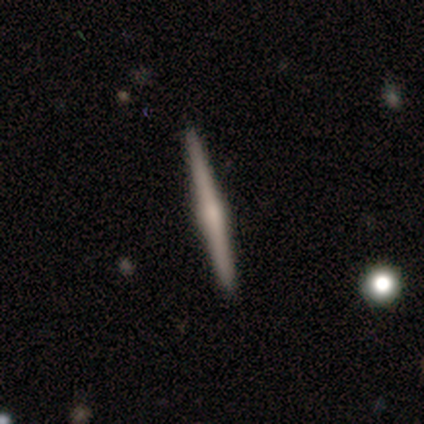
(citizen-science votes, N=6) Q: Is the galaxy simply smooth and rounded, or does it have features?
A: featured or disk — 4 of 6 (67%).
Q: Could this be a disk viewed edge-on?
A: yes — 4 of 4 (100%).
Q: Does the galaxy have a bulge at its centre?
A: rounded — 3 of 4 (75%).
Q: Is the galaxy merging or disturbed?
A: none — 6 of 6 (100%).